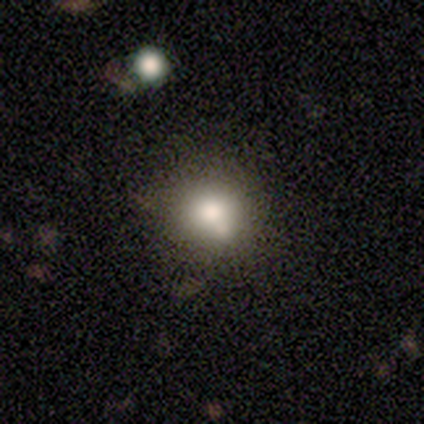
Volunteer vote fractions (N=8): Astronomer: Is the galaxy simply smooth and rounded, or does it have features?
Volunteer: smooth — 75%.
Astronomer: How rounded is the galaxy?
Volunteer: round — 83%.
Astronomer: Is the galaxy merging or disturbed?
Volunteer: none — 62%.